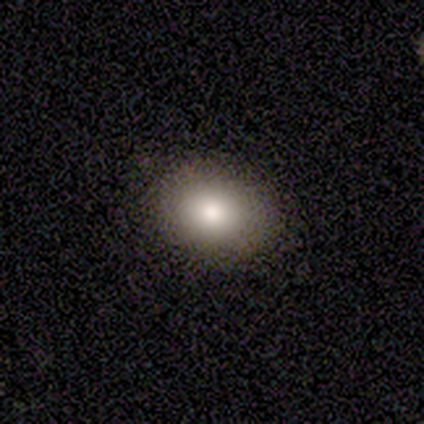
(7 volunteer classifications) This appears to be a smooth galaxy with no disk features (86%) that is in between round and cigar-shaped (100%). Merging: none (100%).